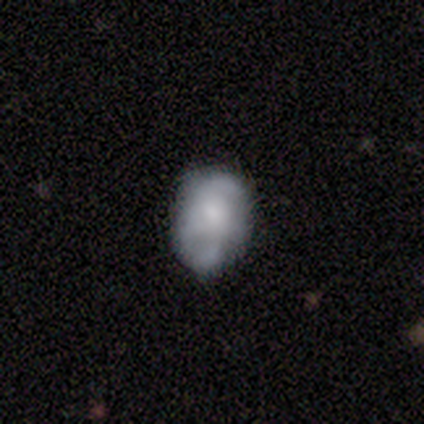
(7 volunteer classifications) A smooth galaxy with no disk features (43%) that is in between round and cigar-shaped (100%).

Vote fractions:
- Smooth or featured? smooth: 43% / featured or disk: 29% / star or artifact: 29%
- How rounded? in between: 100% / round: 0% / cigar-shaped: 0%
- Merging? none: 60% / minor disturbance: 40% / major disturbance: 0% / merger: 0%